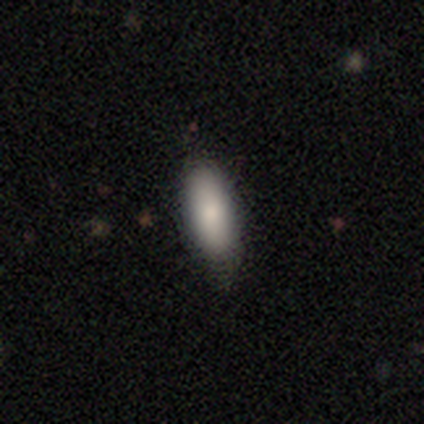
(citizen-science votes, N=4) Morphology: type=smooth (100%); roundness=in between (75%); merging=none (100%).